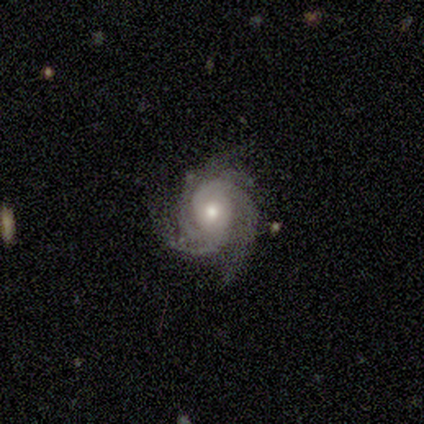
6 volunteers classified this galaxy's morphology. Smooth or featured? 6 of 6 (100%) said featured or disk. Edge-on disk? 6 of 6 (100%) said no. Bar? 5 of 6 (83%) said no. Spiral arms? 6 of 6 (100%) said yes. Spiral winding? 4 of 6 (67%) said medium. Spiral arm count? 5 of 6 (83%) said 3. Bulge size? 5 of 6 (83%) said moderate. Merging? 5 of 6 (83%) said none.